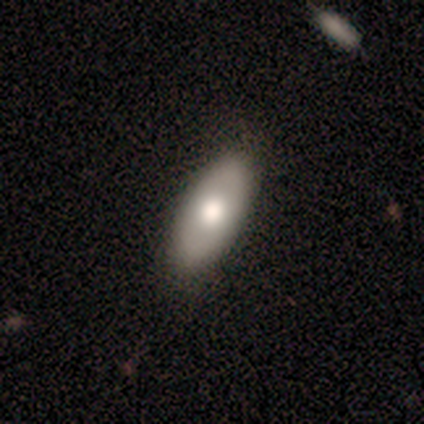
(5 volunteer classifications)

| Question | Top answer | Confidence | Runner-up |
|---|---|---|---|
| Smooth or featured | smooth | 80% | star or artifact (20%) |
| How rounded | in between | 100% | — |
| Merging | none | 75% | minor disturbance (25%) |